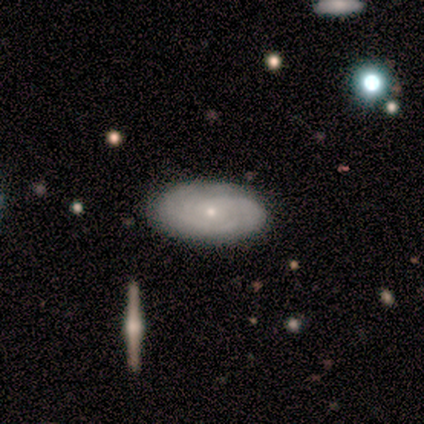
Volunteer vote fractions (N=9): Smooth or featured?
  - featured or disk: 89% *
  - star or artifact: 11%
  - smooth: 0%
Edge-on disk?
  - no: 100% *
  - yes: 0%
Bar?
  - no: 88% *
  - weak: 12%
  - strong: 0%
Spiral arms?
  - yes: 75% *
  - no: 25%
Spiral winding?
  - tight: 67% *
  - medium: 33%
  - loose: 0%
Spiral arm count?
  - can't tell: 50% *
  - 2: 33%
  - 3: 17%
  - 1: 0%
  - 4: 0%
  - more than 4: 0%
Bulge size?
  - small: 100% *
  - dominant: 0%
  - large: 0%
  - moderate: 0%
  - none: 0%
Merging?
  - none: 100% *
  - minor disturbance: 0%
  - major disturbance: 0%
  - merger: 0%